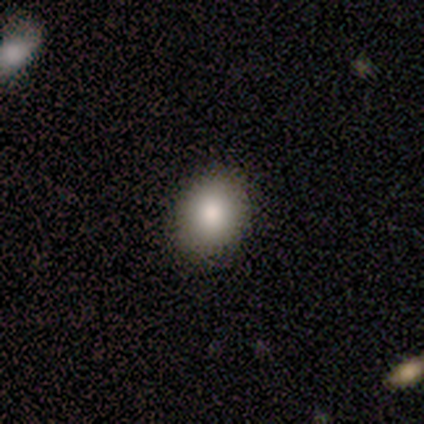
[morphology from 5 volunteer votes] Volunteers were most divided on "how rounded": in between: 60%, round: 40%, cigar-shaped: 0%. More confident: smooth or featured — smooth (100%); merging — none (100%).